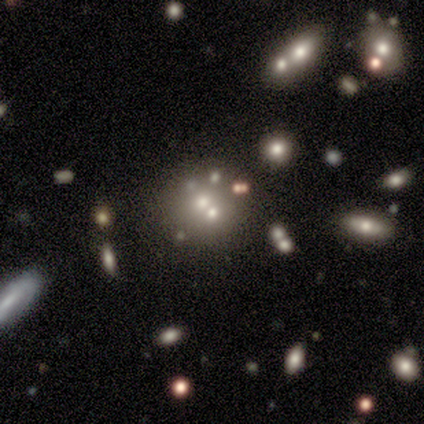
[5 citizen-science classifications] smooth 40% (tied), featured or disk 40% (tied), star or artifact 20%. Down the decision tree: how rounded — round (50%, tied with in between); merging — none (50%).